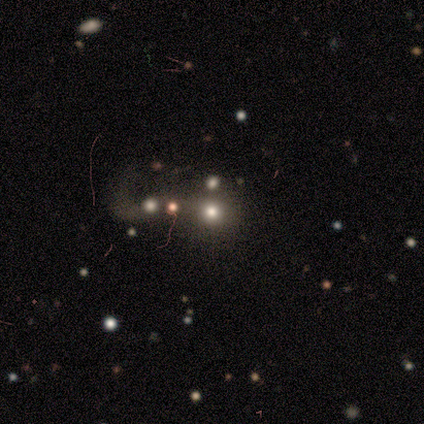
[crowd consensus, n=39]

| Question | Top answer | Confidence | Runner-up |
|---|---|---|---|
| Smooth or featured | smooth | 54% | star or artifact (31%) |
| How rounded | round | 86% | in between (14%) |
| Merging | major disturbance | 30% | none (26%) |